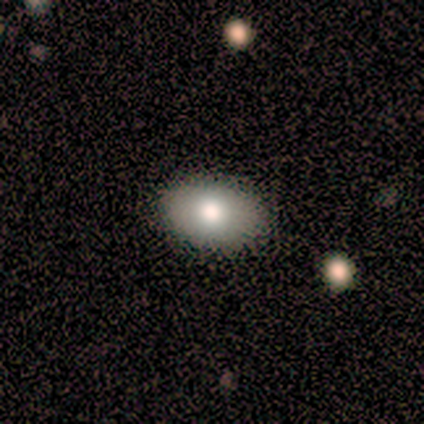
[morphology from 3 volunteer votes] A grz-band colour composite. It shows a smooth galaxy with no disk features (67%) that is in between round and cigar-shaped (100%). Merging: none (100%).